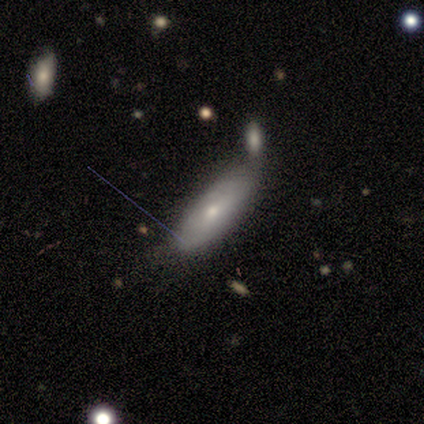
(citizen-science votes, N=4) Morphology: type=smooth (75%); roundness=in between (67%); merging=minor disturbance (100%).